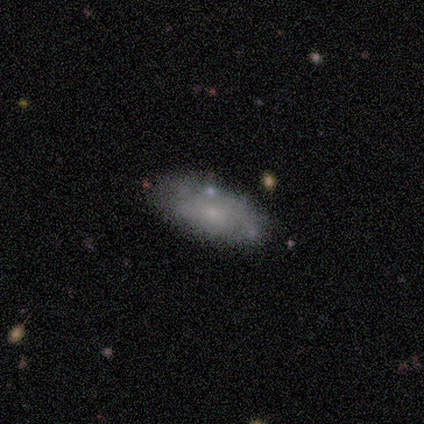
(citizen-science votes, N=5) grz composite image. It shows a smooth galaxy with no disk features (60%) that is in between round and cigar-shaped (100%). Merging: none (100%).